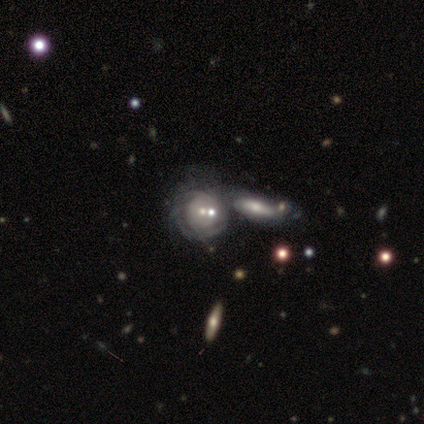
This is clearly a featured or disk galaxy (80%). It is likely not viewed edge-on (75%). Bar: clearly no (100%). Spiral arm pattern: clearly yes (100%). Spiral arm count: likely can't tell (67%). Spiral winding: clearly tight (100%). Central bulge: likely moderate (67%). Merging: clearly merger (100%).